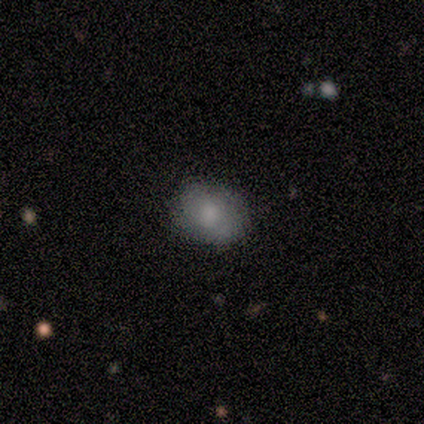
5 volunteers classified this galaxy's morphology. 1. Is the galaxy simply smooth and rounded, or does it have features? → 100% smooth, 0% featured or disk, 0% star or artifact.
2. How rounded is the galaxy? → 80% in between, 20% round, 0% cigar-shaped.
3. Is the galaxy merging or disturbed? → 100% none, 0% minor disturbance, 0% major disturbance, 0% merger.